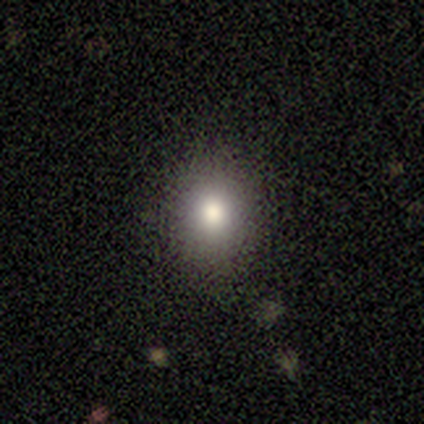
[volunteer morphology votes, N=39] Smooth or featured? 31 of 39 (79%) said smooth. How rounded? 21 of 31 (68%) said round. Merging? 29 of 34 (85%) said none.